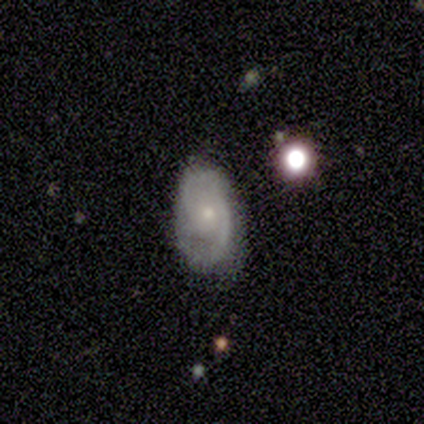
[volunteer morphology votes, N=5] Smooth or featured? 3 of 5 (60%) said featured or disk. Edge-on disk? 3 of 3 (100%) said no. Bar? 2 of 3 (67%) said weak. Spiral arms? 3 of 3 (100%) said yes. Spiral winding? 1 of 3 (33%, tied with medium and loose) said tight. Spiral arm count? 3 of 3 (100%) said 2. Bulge size? 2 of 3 (67%) said small. Merging? 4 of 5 (80%) said none.